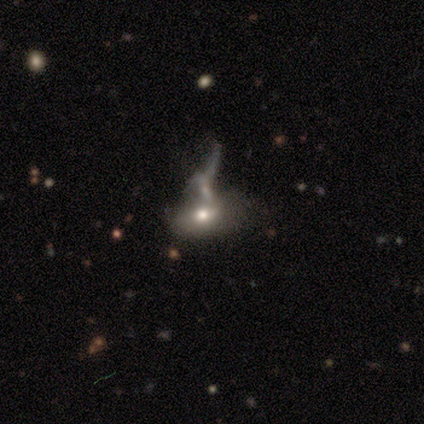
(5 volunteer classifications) smooth_or_featured: smooth (p=0.40) [tied with: featured or disk p=0.40]
how_rounded: in between (p=1.00)
merging: major disturbance (p=0.50) [tied with: merger p=0.50]